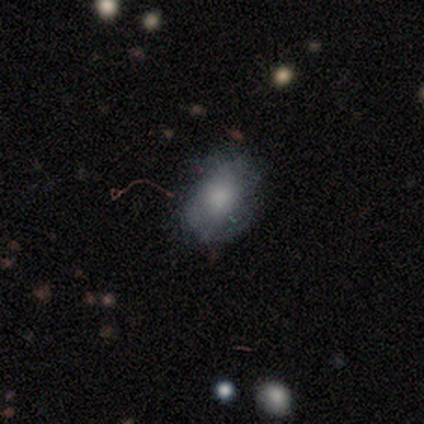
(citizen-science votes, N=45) Smooth or featured? 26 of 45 (58%) said smooth. How rounded? 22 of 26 (85%) said in between. Merging? 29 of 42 (69%) said none.